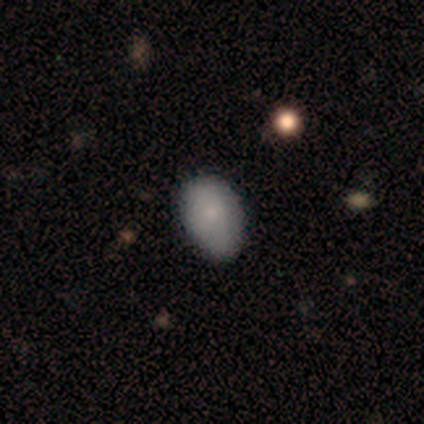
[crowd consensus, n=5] A smooth galaxy with no disk features (100%) that is in between round and cigar-shaped (100%). Merging: none (60%).